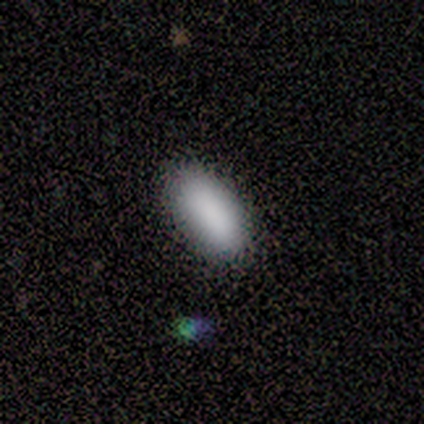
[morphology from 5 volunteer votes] smooth-or-featured: smooth: 80% | star or artifact: 20% | featured or disk: 0%
  how-rounded: in between: 100% | round: 0% | cigar-shaped: 0%
  merging: none: 100% | minor disturbance: 0% | major disturbance: 0% | merger: 0%